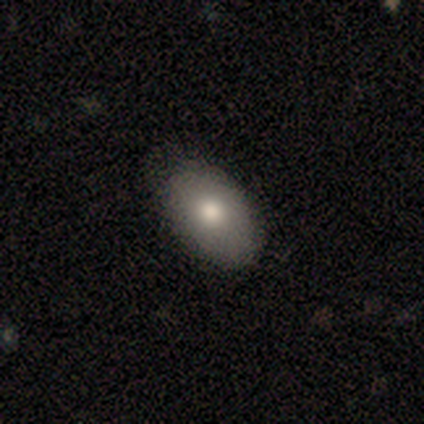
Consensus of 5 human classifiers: Smooth or featured: smooth — 100%
How rounded: in between — 60% (round — 40%)
Merging: none — 80% (minor disturbance — 20%)